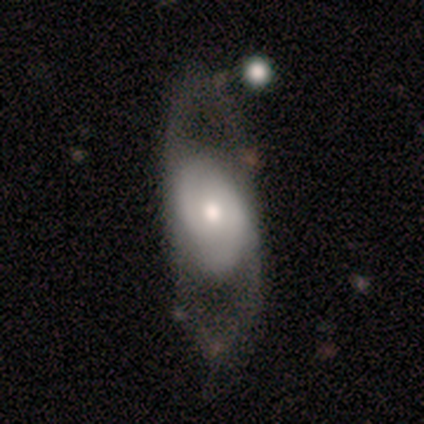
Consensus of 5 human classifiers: Smooth or featured: featured or disk — 80% (smooth — 20%)
Edge-on disk: no — 100%
Bar: no — 100%
Spiral arms: yes — 50% (tied with no — 50%)
Spiral winding: tight — 50% (tied with medium — 50%)
Spiral arm count: 2 — 100%
Bulge size: moderate — 75% (small — 25%)
Merging: none — 60% (major disturbance — 20%)